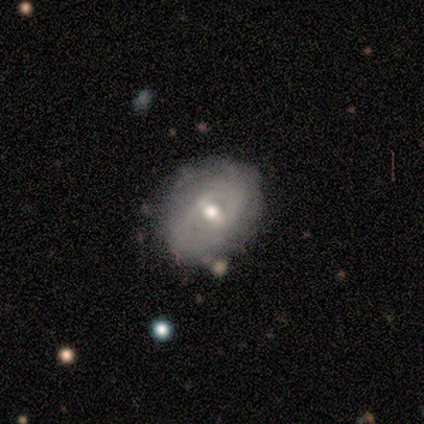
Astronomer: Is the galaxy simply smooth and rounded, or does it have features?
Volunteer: featured or disk — 67%.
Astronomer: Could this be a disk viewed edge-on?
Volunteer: no — 100%.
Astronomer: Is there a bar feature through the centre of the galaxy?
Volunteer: weak — 100%.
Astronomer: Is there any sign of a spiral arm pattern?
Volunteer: no — 75%.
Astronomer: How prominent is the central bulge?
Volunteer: moderate — 75%.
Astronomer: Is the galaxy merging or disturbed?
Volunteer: none — 100%.